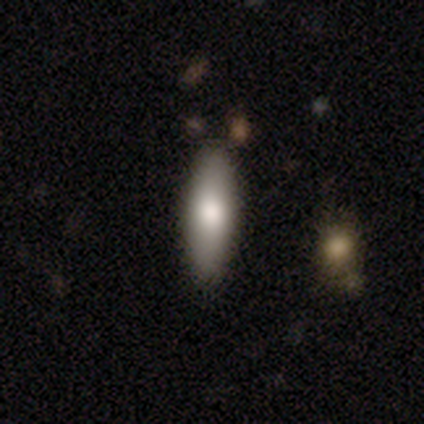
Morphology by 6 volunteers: A smooth galaxy with no disk features (83%) that is in between round and cigar-shaped (60%).

Vote fractions:
- Smooth or featured? smooth: 83% / featured or disk: 17% / star or artifact: 0%
- How rounded? in between: 60% / cigar-shaped: 40% / round: 0%
- Merging? none: 100% / minor disturbance: 0% / major disturbance: 0% / merger: 0%